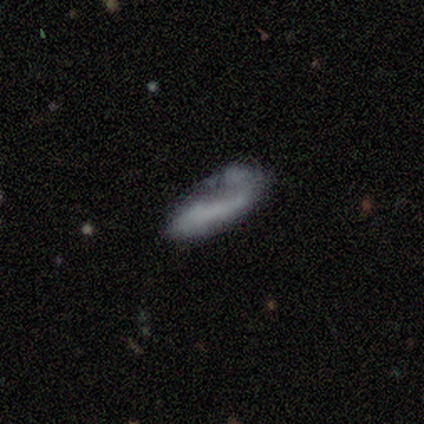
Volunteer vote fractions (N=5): Smooth or featured? 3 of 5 (60%) said smooth. How rounded? 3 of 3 (100%) said in between. Merging? 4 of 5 (80%) said major disturbance.